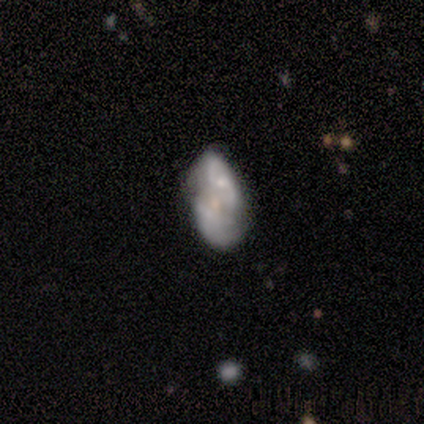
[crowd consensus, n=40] Smooth or featured: featured or disk — 68% (smooth — 20%)
Edge-on disk: no — 93% (yes — 7%)
Bar: no — 68% (weak — 24%)
Spiral arms: yes — 56% (no — 44%)
Spiral winding: loose — 43% (tight — 36%)
Spiral arm count: 2 — 64% (can't tell — 29%)
Bulge size: small — 52% (none — 28%)
Merging: none — 34% (merger — 31%)